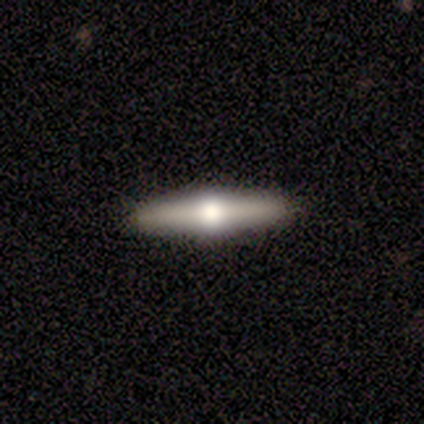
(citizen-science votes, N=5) featured or disk 60%, smooth 40%, star or artifact 0%. Down the decision tree: edge-on disk — yes (100%); edge-on bulge — rounded (100%); merging — none (100%).